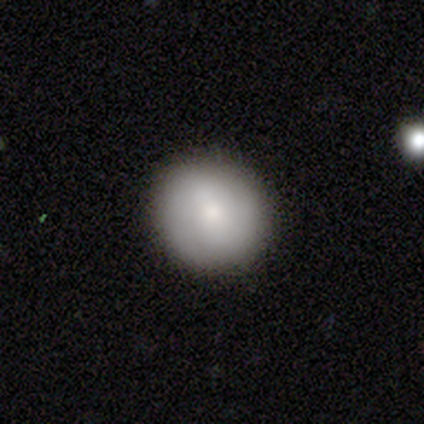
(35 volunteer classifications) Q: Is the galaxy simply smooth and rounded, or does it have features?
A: smooth — 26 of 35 (74%).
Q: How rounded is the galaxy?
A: round — 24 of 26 (92%).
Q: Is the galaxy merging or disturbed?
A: none — 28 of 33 (85%).